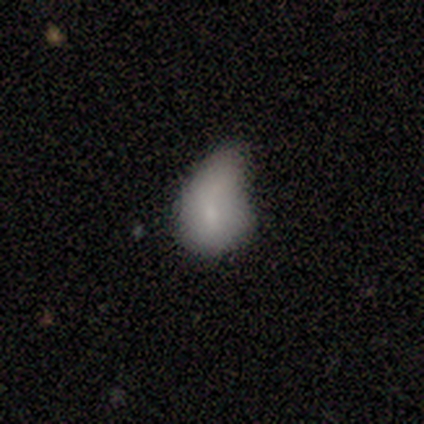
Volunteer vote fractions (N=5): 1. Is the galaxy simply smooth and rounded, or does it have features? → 80% smooth, 20% featured or disk, 0% star or artifact.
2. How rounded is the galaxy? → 50% round (tied), 50% in between (tied), 0% cigar-shaped.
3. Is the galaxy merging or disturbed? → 60% minor disturbance, 20% none, 20% major disturbance, 0% merger.